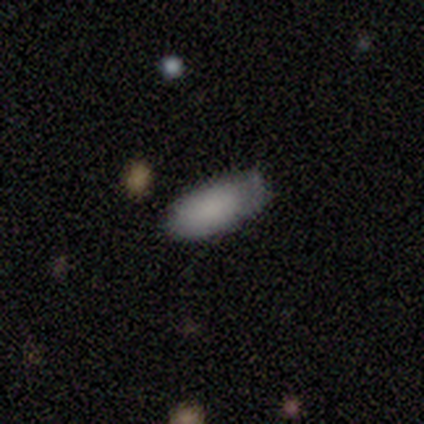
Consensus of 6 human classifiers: Q: Smooth or featured?
A: smooth (67%); runner-up: featured or disk (33%)
Q: How rounded?
A: in between (100%)
Q: Merging?
A: minor disturbance (67%); runner-up: none (33%)